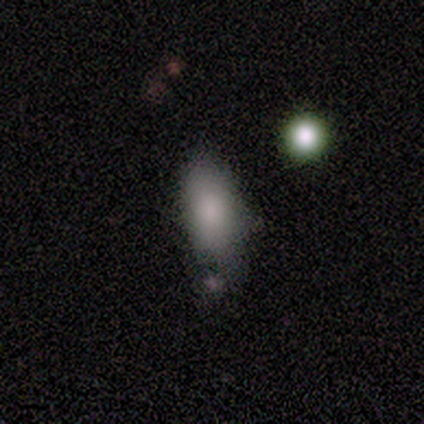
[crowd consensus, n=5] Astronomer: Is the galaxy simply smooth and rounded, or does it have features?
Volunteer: smooth — 80%.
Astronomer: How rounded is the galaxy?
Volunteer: in between — 75%.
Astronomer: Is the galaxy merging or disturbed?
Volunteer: none — 25%, tied with minor disturbance, major disturbance and merger at 25%.